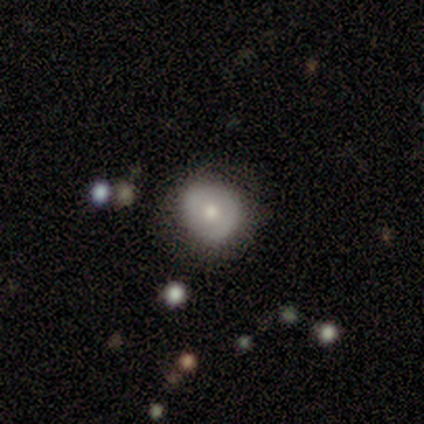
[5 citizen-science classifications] smooth-or-featured: smooth: 60% | featured or disk: 20% | star or artifact: 20%
  how-rounded: round: 100% | in between: 0% | cigar-shaped: 0%
  merging: none: 100% | minor disturbance: 0% | major disturbance: 0% | merger: 0%